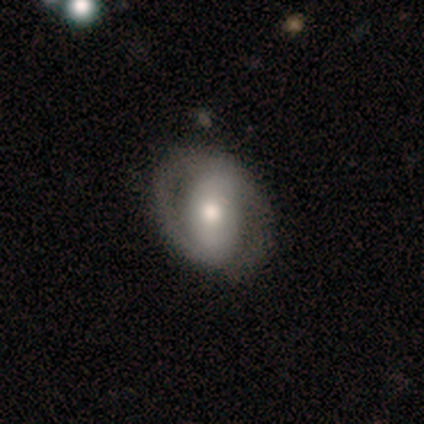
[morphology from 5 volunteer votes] Smooth or featured? 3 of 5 (60%) said smooth. How rounded? 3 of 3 (100%) said round. Merging? 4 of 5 (80%) said none.